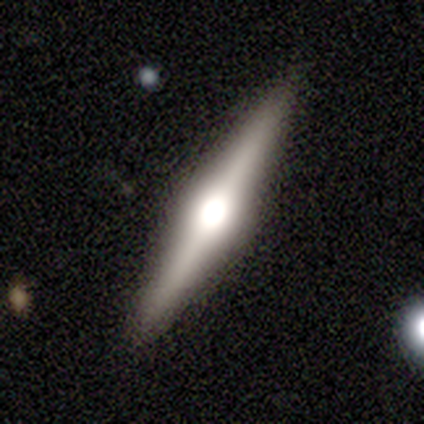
Smooth or featured?
  - featured or disk: 50% *
  - smooth: 25%
  - star or artifact: 25%
Edge-on disk?
  - yes: 100% *
  - no: 0%
Edge-on bulge?
  - rounded: 100% *
  - boxy: 0%
  - none: 0%
Merging?
  - none: 100% *
  - minor disturbance: 0%
  - major disturbance: 0%
  - merger: 0%